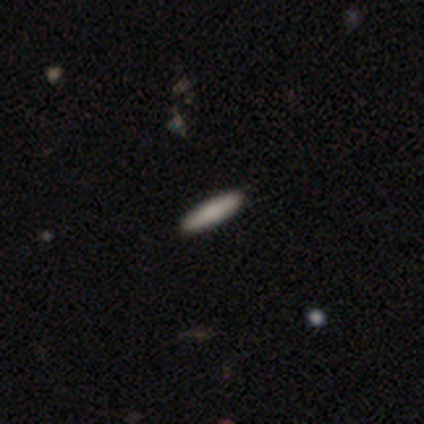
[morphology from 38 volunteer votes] type=smooth (79%); roundness=cigar-shaped (83%); merging=none (95%).